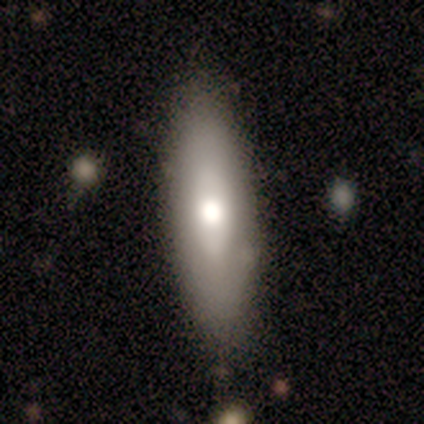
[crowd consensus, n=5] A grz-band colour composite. It shows a smooth galaxy with no disk features (100%) that is in between round and cigar-shaped (80%). Merging: none (80%).